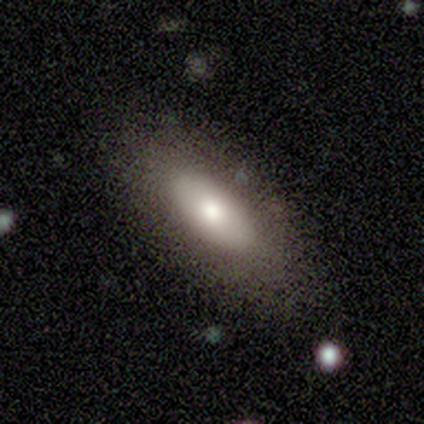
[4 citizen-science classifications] Q: Smooth or featured?
A: smooth (75%); runner-up: star or artifact (25%)
Q: How rounded?
A: in between (100%)
Q: Merging?
A: none (100%)